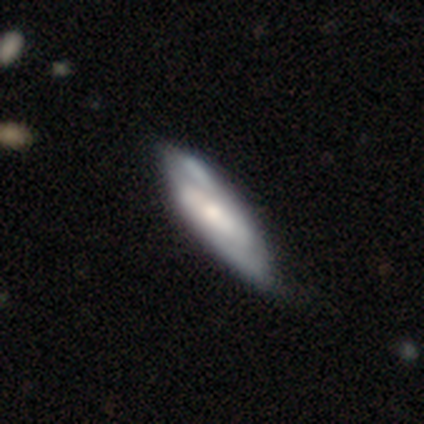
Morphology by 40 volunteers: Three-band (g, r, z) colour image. It shows a featured or disk galaxy (62%) with a weak bar (52%), 2 (72%) medium (44%) spiral arms (86%) and a moderate central bulge (43%, tied with small). Merging: none (44%).